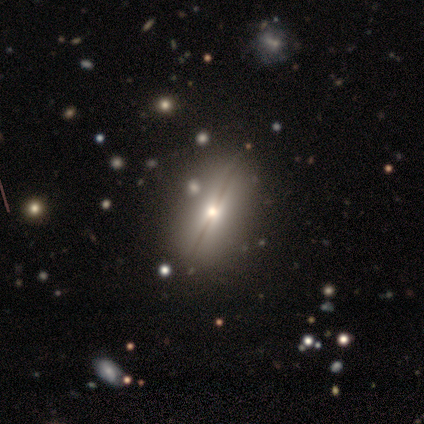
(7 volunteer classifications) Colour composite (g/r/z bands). It shows a smooth galaxy with no disk features (43%) that is in between round and cigar-shaped (67%). Merging: none (60%).